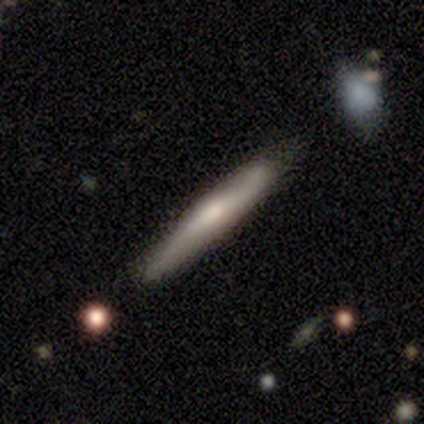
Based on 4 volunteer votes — A smooth galaxy with no disk features (100%) that is cigar-shaped (100%). Merging: none (100%).